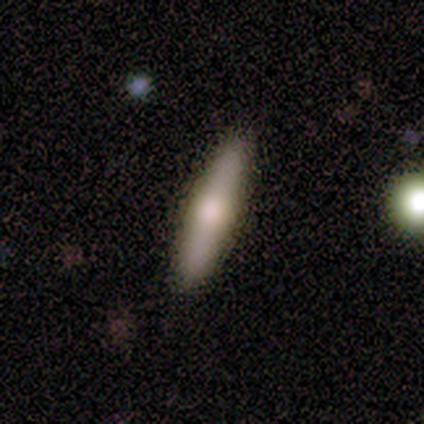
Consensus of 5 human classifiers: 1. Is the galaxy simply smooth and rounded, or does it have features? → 60% smooth, 40% featured or disk, 0% star or artifact.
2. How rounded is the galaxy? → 100% cigar-shaped, 0% round, 0% in between.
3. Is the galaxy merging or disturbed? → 100% none, 0% minor disturbance, 0% major disturbance, 0% merger.